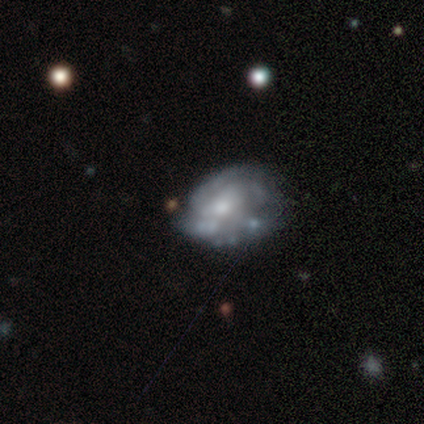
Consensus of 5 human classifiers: Q: Smooth or featured?
A: featured or disk (60%); runner-up: smooth (20%)
Q: Edge-on disk?
A: no (100%)
Q: Bar?
A: weak (67%); runner-up: no (33%)
Q: Spiral arms?
A: yes (100%)
Q: Spiral winding?
A: tight (67%); runner-up: medium (33%)
Q: Spiral arm count?
A: can't tell (67%); runner-up: 2 (33%)
Q: Bulge size?
A: moderate (67%); runner-up: small (33%)
Q: Merging?
A: none (50%); runner-up: minor disturbance (25%)